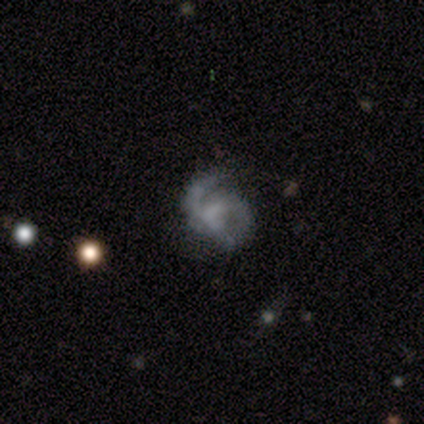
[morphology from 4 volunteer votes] Smooth or featured: featured or disk — 75% (smooth — 25%)
Edge-on disk: no — 100%
Bar: weak — 67% (no — 33%)
Spiral arms: yes — 100%
Spiral winding: loose — 67% (medium — 33%)
Spiral arm count: 3 — 67% (2 — 33%)
Bulge size: none — 100%
Merging: none — 50% (minor disturbance — 25%)